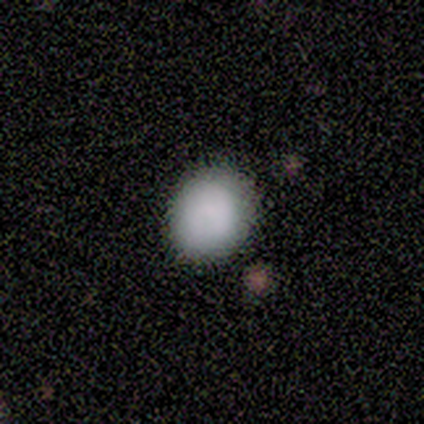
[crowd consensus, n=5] A smooth galaxy with no disk features (80%) that is round (75%). Merging: none (60%).